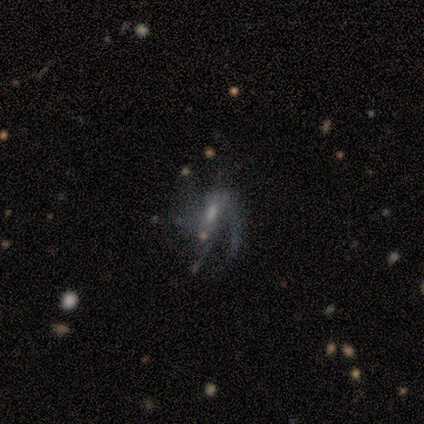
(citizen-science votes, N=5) This appears to be a featured or disk galaxy (80%) with a weak bar (67%), 1 (33%, tied with 2 and 4) tight (33%, tied with medium and loose) spiral arms (100%) and a small central bulge (67%). Merging: minor disturbance (50%, tied with major disturbance).